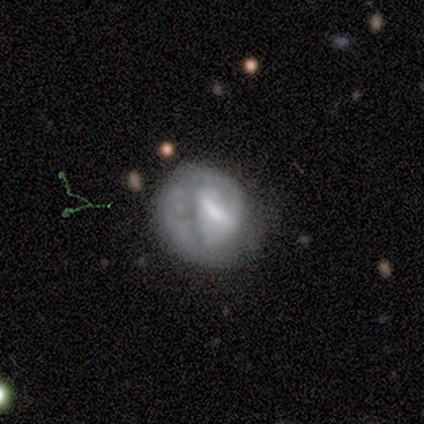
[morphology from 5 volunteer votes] featured or disk 60%, smooth 40%, star or artifact 0%. Down the decision tree: edge-on disk — no (100%); bar — strong (33%, tied with weak and no); spiral arms — no (100%); bulge size — none (67%); merging — major disturbance (60%).